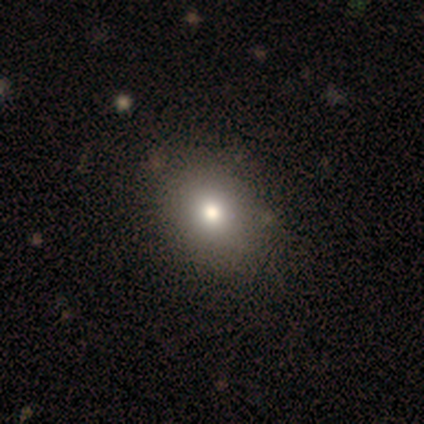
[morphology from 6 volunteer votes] A smooth galaxy with no disk features (67%) that is round (50%, tied with in between).

Vote fractions:
- Smooth or featured? smooth: 67% / featured or disk: 17% / star or artifact: 17%
- How rounded? round: 50% (tied) / in between: 50% (tied) / cigar-shaped: 0%
- Merging? none: 80% / minor disturbance: 20% / major disturbance: 0% / merger: 0%